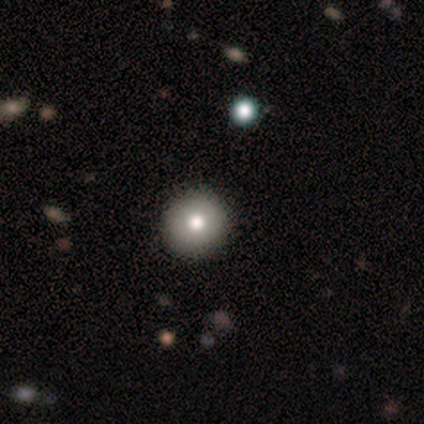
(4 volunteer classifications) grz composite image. It shows a smooth galaxy with no disk features (75%) that is round (100%). Merging: none (100%).